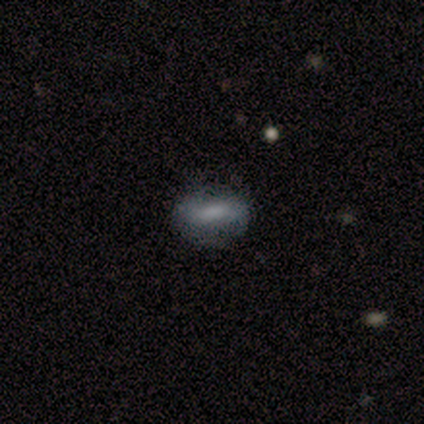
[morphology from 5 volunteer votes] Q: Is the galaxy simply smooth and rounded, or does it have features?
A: smooth — 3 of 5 (60%).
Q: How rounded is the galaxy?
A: in between — 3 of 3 (100%).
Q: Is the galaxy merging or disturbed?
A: none — 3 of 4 (75%).